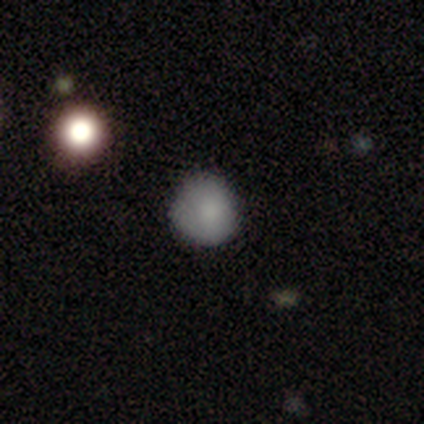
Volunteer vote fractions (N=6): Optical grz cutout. It shows a smooth galaxy with no disk features (83%) that is round (80%). Merging: none (67%).